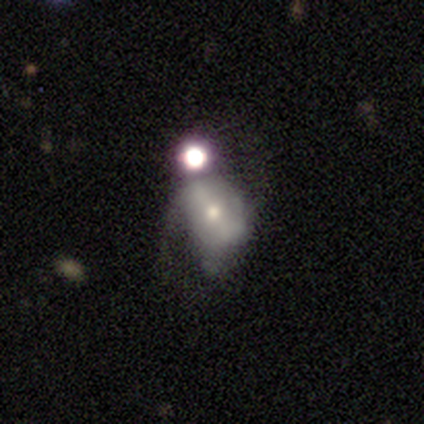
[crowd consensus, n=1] A smooth galaxy with no disk features (100%) that is round (100%).

Vote fractions:
- Smooth or featured? smooth: 100% / featured or disk: 0% / star or artifact: 0%
- How rounded? round: 100% / in between: 0% / cigar-shaped: 0%
- Merging? minor disturbance: 100% / none: 0% / major disturbance: 0% / merger: 0%